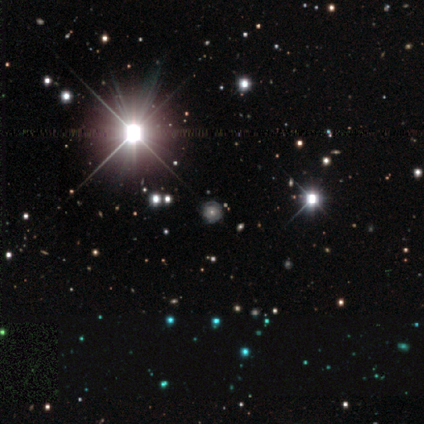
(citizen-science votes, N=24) Smooth or featured? 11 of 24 (46%) said featured or disk. Edge-on disk? 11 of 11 (100%) said no. Bar? 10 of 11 (91%) said no. Spiral arms? 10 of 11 (91%) said yes. Spiral winding? 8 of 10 (80%) said tight. Spiral arm count? 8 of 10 (80%) said can't tell. Bulge size? 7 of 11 (64%) said moderate. Merging? 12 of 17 (71%) said none.